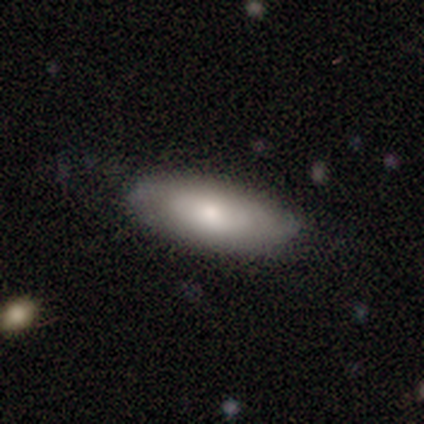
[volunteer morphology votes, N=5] Volunteers were most divided on "smooth or featured": smooth: 80%, featured or disk: 20%, star or artifact: 0%. More confident: how rounded — in between (100%); merging — none (80%).